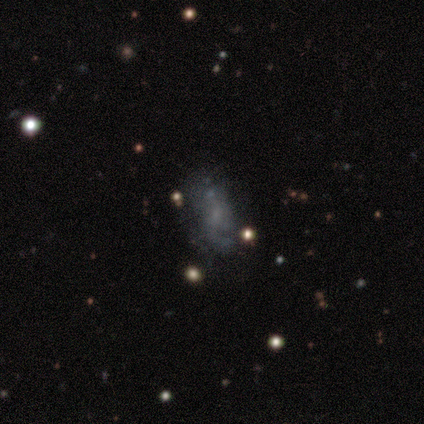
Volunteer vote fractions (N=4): Smooth or featured?
  - featured or disk: 75% *
  - smooth: 25%
  - star or artifact: 0%
Edge-on disk?
  - no: 100% *
  - yes: 0%
Bar?
  - no: 67% *
  - weak: 33%
  - strong: 0%
Spiral arms?
  - no: 67% *
  - yes: 33%
Bulge size?
  - none: 67% *
  - small: 33%
  - dominant: 0%
  - large: 0%
  - moderate: 0%
Merging?
  - minor disturbance: 50% *
  - none: 25%
  - major disturbance: 25%
  - merger: 0%